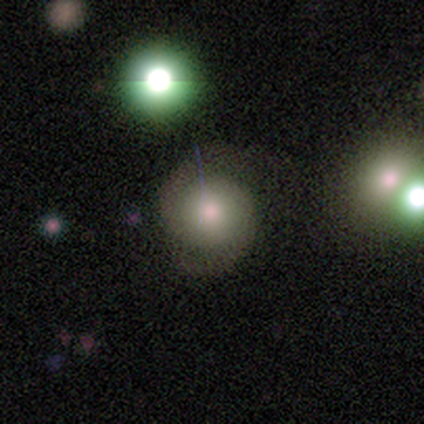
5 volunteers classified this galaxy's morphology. Smooth or featured?
  - featured or disk: 60% *
  - smooth: 40%
  - star or artifact: 0%
Edge-on disk?
  - no: 100% *
  - yes: 0%
Bar?
  - no: 100% *
  - strong: 0%
  - weak: 0%
Spiral arms?
  - yes: 67% *
  - no: 33%
Spiral winding?
  - medium: 50% * (tied)
  - loose: 50% * (tied)
  - tight: 0%
Spiral arm count?
  - 2: 100% *
  - 1: 0%
  - 3: 0%
  - 4: 0%
  - more than 4: 0%
  - can't tell: 0%
Bulge size?
  - small: 67% *
  - moderate: 33%
  - dominant: 0%
  - large: 0%
  - none: 0%
Merging?
  - none: 80% *
  - minor disturbance: 20%
  - major disturbance: 0%
  - merger: 0%